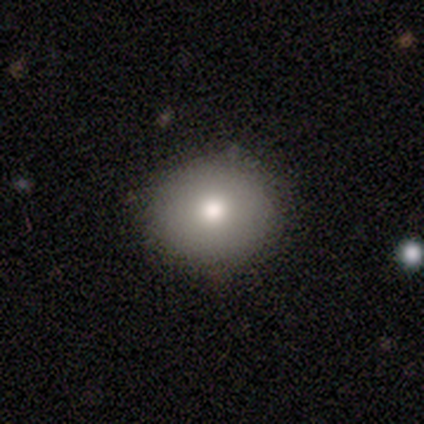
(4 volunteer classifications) smooth_or_featured: smooth (p=1.00)
how_rounded: round (p=1.00)
merging: none (p=1.00)